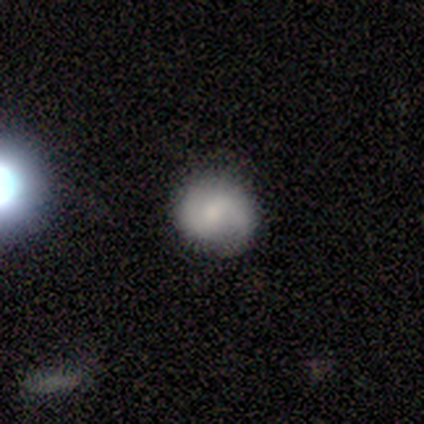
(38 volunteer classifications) A featured or disk galaxy (53%) with a weak bar (60%), 2 (89%) medium (56%) spiral arms (90%) and a small central bulge (60%).

Vote fractions:
- Smooth or featured? featured or disk: 53% / smooth: 42% / star or artifact: 5%
- Edge-on disk? no: 100% / yes: 0%
- Bar? weak: 60% / no: 35% / strong: 5%
- Spiral arms? yes: 90% / no: 10%
- Spiral winding? medium: 56% / loose: 33% / tight: 11%
- Spiral arm count? 2: 89% / 1: 6% / can't tell: 6% / 3: 0% / 4: 0% / more than 4: 0%
- Bulge size? small: 60% / moderate: 30% / large: 5% / none: 5% / dominant: 0%
- Merging? none: 78% / minor disturbance: 19% / merger: 3% / major disturbance: 0%